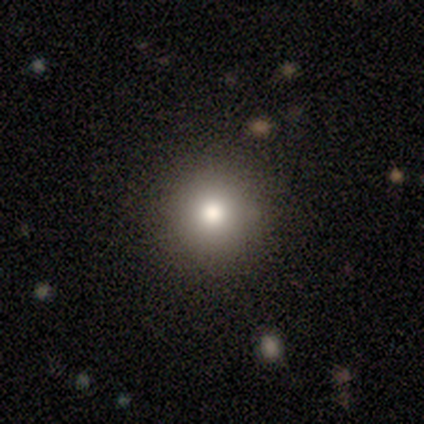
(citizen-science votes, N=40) Smooth or featured: smooth — 80% (star or artifact — 15%)
How rounded: round — 91% (in between — 9%)
Merging: none — 82% (minor disturbance — 12%)